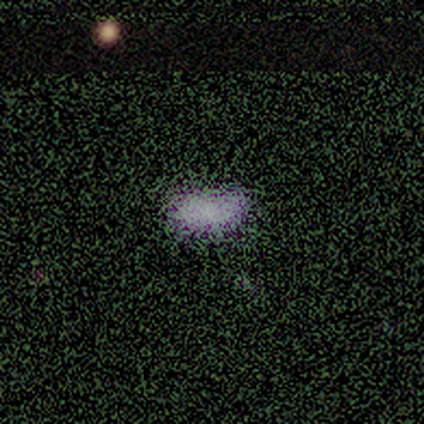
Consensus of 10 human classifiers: Smooth or featured? smooth (60%)
How rounded? in between (100%)
Merging? none (100%)